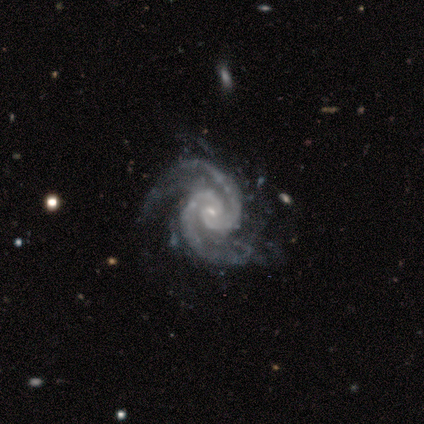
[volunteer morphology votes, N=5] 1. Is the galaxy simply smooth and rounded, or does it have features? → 100% featured or disk, 0% smooth, 0% star or artifact.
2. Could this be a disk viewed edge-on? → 100% no, 0% yes.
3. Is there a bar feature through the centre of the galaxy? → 40% strong (tied), 40% no (tied), 20% weak.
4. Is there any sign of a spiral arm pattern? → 100% yes, 0% no.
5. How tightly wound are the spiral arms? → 60% medium, 40% tight, 0% loose.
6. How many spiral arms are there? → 100% 2, 0% 1, 0% 3, 0% 4, 0% more than 4, 0% can't tell.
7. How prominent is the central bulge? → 80% small, 20% none, 0% dominant, 0% large, 0% moderate.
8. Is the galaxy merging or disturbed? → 80% none, 20% minor disturbance, 0% major disturbance, 0% merger.